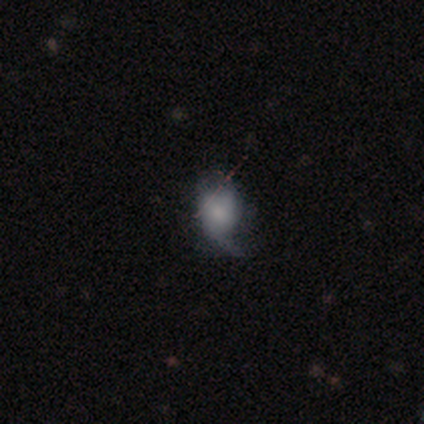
Smooth or featured?
  - smooth: 50% * (tied)
  - featured or disk: 50% * (tied)
  - star or artifact: 0%
How rounded?
  - round: 67% *
  - in between: 33%
  - cigar-shaped: 0%
Merging?
  - none: 67% *
  - minor disturbance: 33%
  - major disturbance: 0%
  - merger: 0%